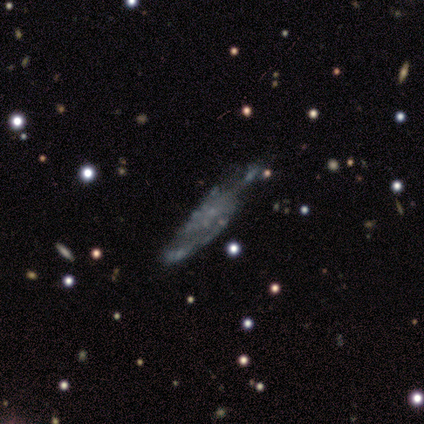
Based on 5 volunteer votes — Smooth or featured? featured or disk (60%)
Edge-on disk? no (100%)
Bar? no (100%)
Spiral arms? no (100%)
Bulge size? none (100%)
Merging? none (75%)